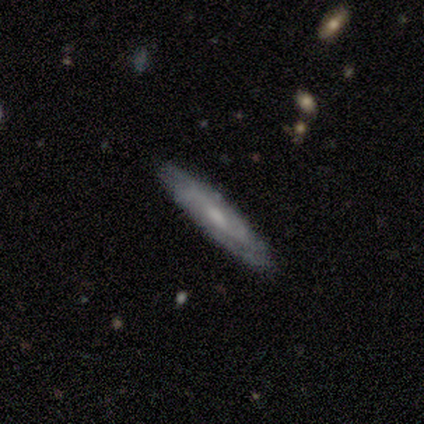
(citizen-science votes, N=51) smooth_or_featured: featured or disk (p=0.67) [alt: smooth p=0.33]
disk_edge_on: no (p=0.56) [alt: yes p=0.44]
bar: no (p=0.79) [alt: weak p=0.21]
has_spiral_arms: yes (p=0.89) [alt: no p=0.11]
spiral_winding: tight (p=0.53) [alt: medium p=0.29]
spiral_arm_count: can't tell (p=0.53) [alt: 2 p=0.41]
bulge_size: moderate (p=0.47) [alt: small p=0.21]
merging: none (p=0.88) [alt: minor disturbance p=0.08]